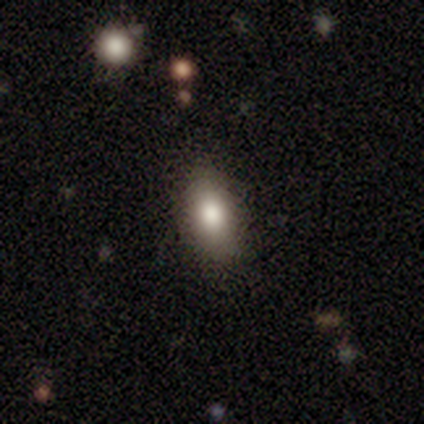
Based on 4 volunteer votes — Smooth or featured? smooth (100%)
How rounded? in between (75%)
Merging? none (100%)